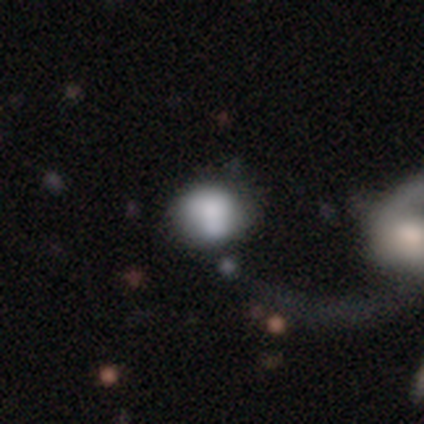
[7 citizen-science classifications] smooth 43% (tied), featured or disk 43% (tied), star or artifact 14%. Down the decision tree: how rounded — round (67%); merging — none (33%, tied with minor disturbance).